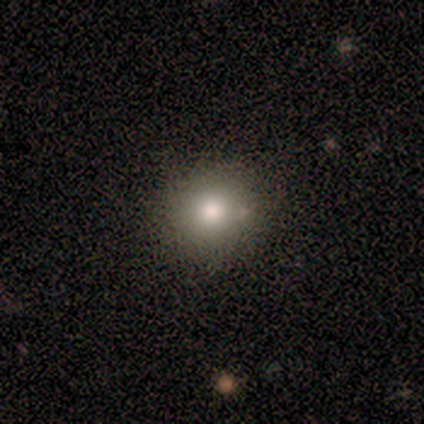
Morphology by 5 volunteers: Smooth or featured: smooth — 80% (star or artifact — 20%)
How rounded: round — 100%
Merging: none — 75% (minor disturbance — 25%)